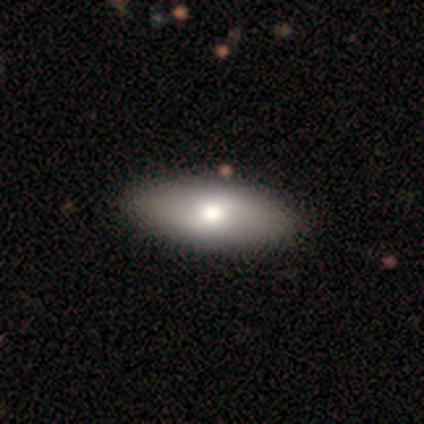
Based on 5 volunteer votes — Volunteers were most divided on "how rounded": cigar-shaped: 60%, in between: 40%, round: 0%. More confident: smooth or featured — smooth (100%); merging — none (100%).